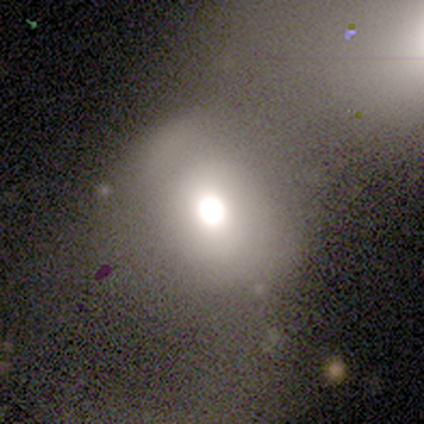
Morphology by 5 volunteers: This appears to be a smooth galaxy with no disk features (80%) that is round (75%). Merging: none (75%).